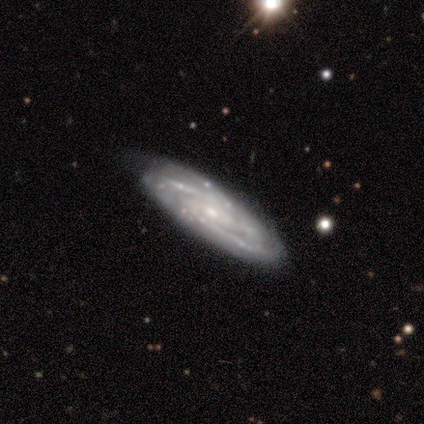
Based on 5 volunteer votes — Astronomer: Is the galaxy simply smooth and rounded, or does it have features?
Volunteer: featured or disk — 100%.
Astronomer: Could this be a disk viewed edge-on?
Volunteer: no — 100%.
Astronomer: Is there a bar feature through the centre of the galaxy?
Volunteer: no — 80%.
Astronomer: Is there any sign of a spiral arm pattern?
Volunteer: yes — 100%.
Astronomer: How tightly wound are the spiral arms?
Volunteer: tight — 80%.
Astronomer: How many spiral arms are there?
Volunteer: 2 — 40%, tied with can't tell at 40%.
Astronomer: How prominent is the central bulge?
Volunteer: small — 80%.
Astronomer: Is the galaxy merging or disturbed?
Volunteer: none — 80%.